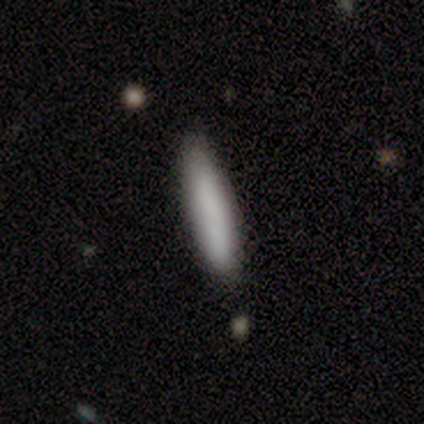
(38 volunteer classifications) Q: Smooth or featured?
A: smooth (84%); runner-up: featured or disk (16%)
Q: How rounded?
A: cigar-shaped (94%); runner-up: in between (6%)
Q: Merging?
A: none (84%); runner-up: minor disturbance (16%)